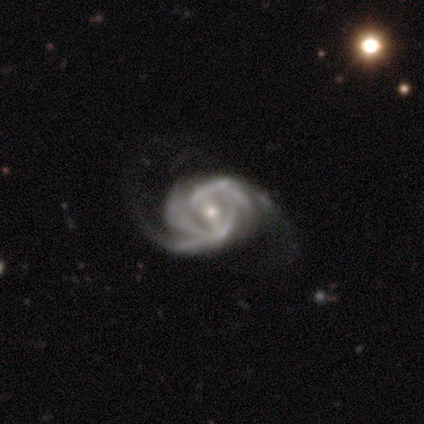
smooth-or-featured: featured or disk: 75% | smooth: 25% | star or artifact: 0%
  disk-edge-on: no: 100% | yes: 0%
    bar: strong: 100% | weak: 0% | no: 0%
    has-spiral-arms: yes: 100% | no: 0%
      spiral-winding: tight: 67% | loose: 33% | medium: 0%
      spiral-arm-count: 4: 67% | can't tell: 33% | 1: 0% | 2: 0% | 3: 0% | more than 4: 0%
    bulge-size: moderate: 67% | small: 33% | dominant: 0% | large: 0% | none: 0%
  merging: none: 50% (tied) | minor disturbance: 50% (tied) | major disturbance: 0% | merger: 0%